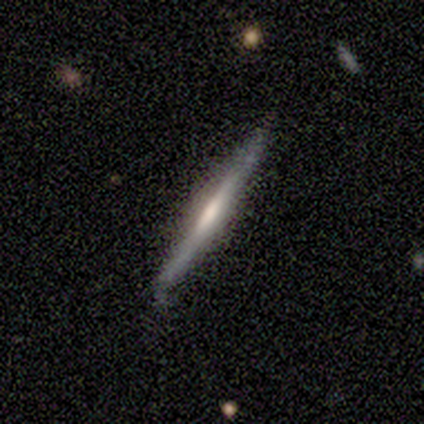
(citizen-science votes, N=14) featured or disk 64%, smooth 21%, star or artifact 14%. Down the decision tree: edge-on disk — yes (100%); edge-on bulge — rounded (44%); merging — none (92%).